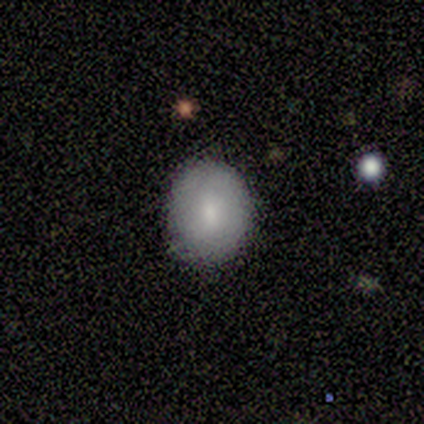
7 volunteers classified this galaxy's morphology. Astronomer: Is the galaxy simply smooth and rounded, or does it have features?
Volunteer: smooth — 71%.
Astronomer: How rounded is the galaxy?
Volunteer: round — 100%.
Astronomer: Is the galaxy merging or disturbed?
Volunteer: none — 100%.